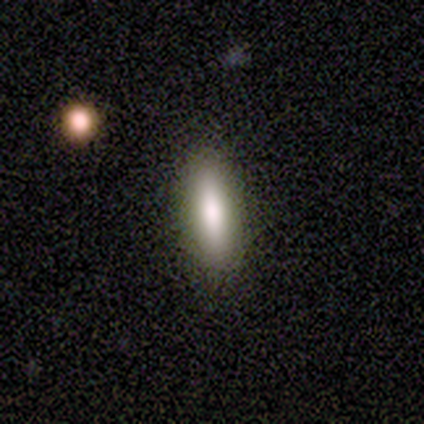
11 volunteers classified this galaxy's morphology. Smooth or featured: smooth — 82% (star or artifact — 18%)
How rounded: cigar-shaped — 89% (in between — 11%)
Merging: none — 100%